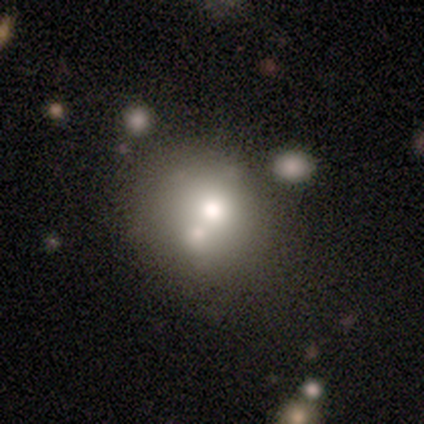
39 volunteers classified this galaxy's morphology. smooth_or_featured: smooth (p=0.69) [alt: featured or disk p=0.23]
how_rounded: round (p=0.59) [alt: in between p=0.41]
merging: none (p=0.50) [alt: merger p=0.31]